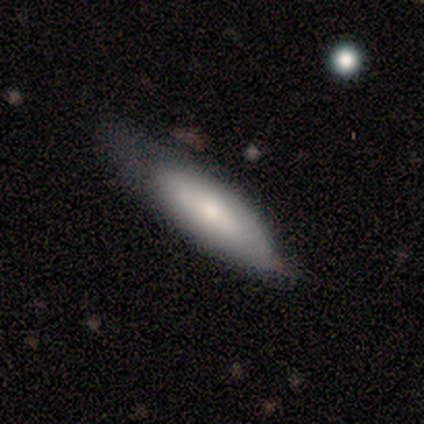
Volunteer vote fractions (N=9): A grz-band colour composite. It shows a smooth galaxy with no disk features (56%) that is in between round and cigar-shaped (60%). Merging: minor disturbance (44%).